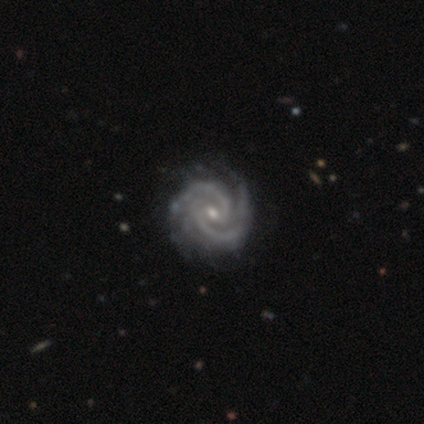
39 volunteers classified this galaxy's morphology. Overall: featured or disk (100%). Edge-on disk: no (100%). Bar: weak (46%, tied with no). Spiral arms: yes (100%). Spiral arm count: 2 (82%). Spiral winding: tight (69%). Bulge size: small (54%; moderate 44%). Merging: none (69%).